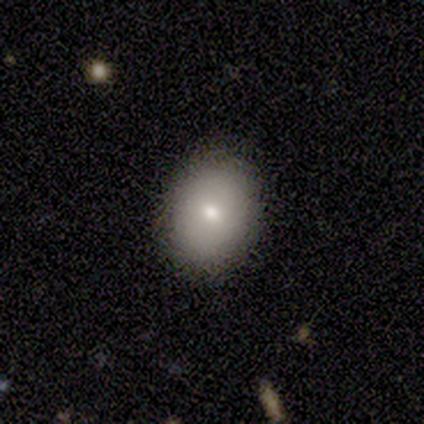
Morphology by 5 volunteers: Smooth or featured? 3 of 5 (60%) said smooth. How rounded? 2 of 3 (67%) said round. Merging? 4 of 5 (80%) said none.